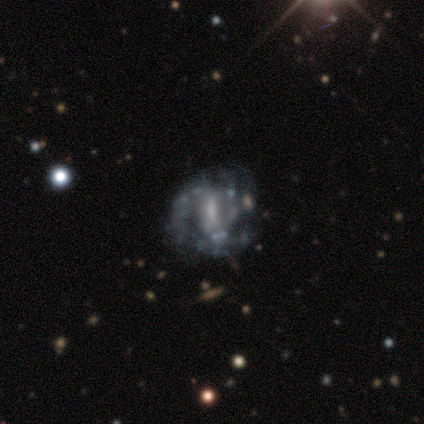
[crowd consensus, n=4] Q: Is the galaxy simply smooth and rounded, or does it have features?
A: featured or disk — 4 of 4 (100%).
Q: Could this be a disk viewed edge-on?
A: no — 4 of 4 (100%).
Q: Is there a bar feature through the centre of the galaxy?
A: strong — 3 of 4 (75%).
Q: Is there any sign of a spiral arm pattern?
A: yes — 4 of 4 (100%).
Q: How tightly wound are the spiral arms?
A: medium — 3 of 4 (75%).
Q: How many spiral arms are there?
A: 3 — 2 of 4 (50%).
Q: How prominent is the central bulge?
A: small — 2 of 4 (50%).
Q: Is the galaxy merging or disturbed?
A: none — 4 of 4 (100%).